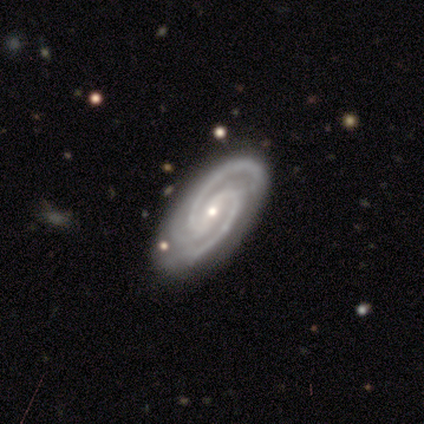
A featured or disk galaxy (100%) with no bar (57%), 2 (86%) tight (43%, tied with medium) spiral arms (100%) and a small central bulge (100%).

Vote fractions:
- Smooth or featured? featured or disk: 100% / smooth: 0% / star or artifact: 0%
- Edge-on disk? no: 100% / yes: 0%
- Bar? no: 57% / strong: 29% / weak: 14%
- Spiral arms? yes: 100% / no: 0%
- Spiral winding? tight: 43% (tied) / medium: 43% (tied) / loose: 14%
- Spiral arm count? 2: 86% / 3: 14% / 1: 0% / 4: 0% / more than 4: 0% / can't tell: 0%
- Bulge size? small: 100% / dominant: 0% / large: 0% / moderate: 0% / none: 0%
- Merging? none: 86% / major disturbance: 14% / minor disturbance: 0% / merger: 0%